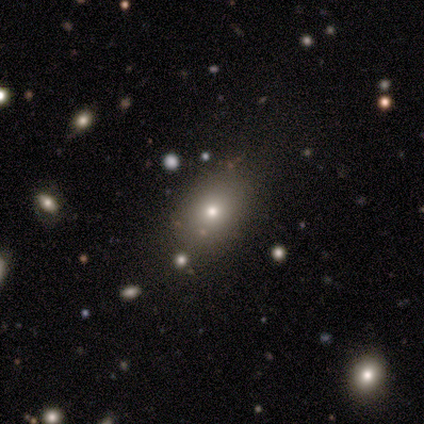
Q: Smooth or featured?
A: star or artifact (75%); runner-up: smooth (25%)